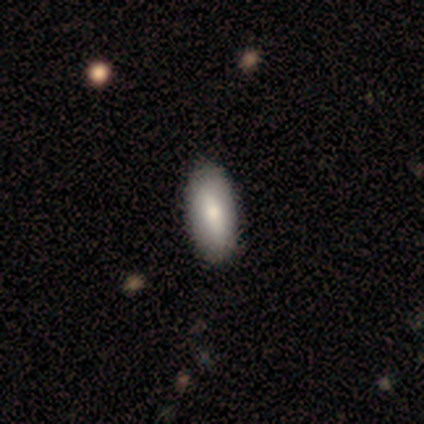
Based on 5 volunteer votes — Overall: smooth (80%). How rounded: in between (100%). Merging: none (80%).